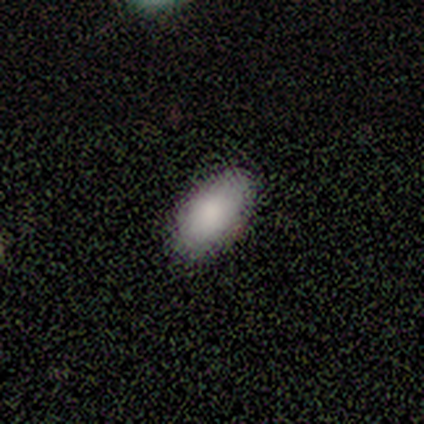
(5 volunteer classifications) Smooth or featured?
  - smooth: 100% *
  - featured or disk: 0%
  - star or artifact: 0%
How rounded?
  - in between: 100% *
  - round: 0%
  - cigar-shaped: 0%
Merging?
  - none: 100% *
  - minor disturbance: 0%
  - major disturbance: 0%
  - merger: 0%